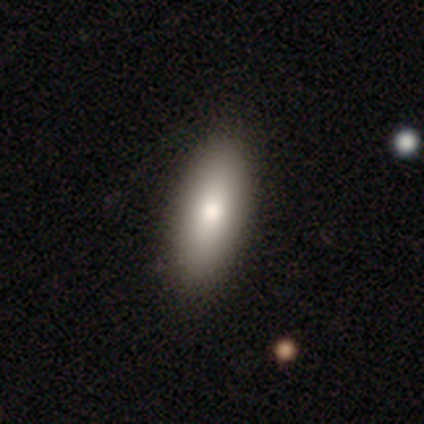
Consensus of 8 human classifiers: smooth-or-featured: smooth: 100% | featured or disk: 0% | star or artifact: 0%
  how-rounded: in between: 75% | cigar-shaped: 25% | round: 0%
  merging: none: 100% | minor disturbance: 0% | major disturbance: 0% | merger: 0%